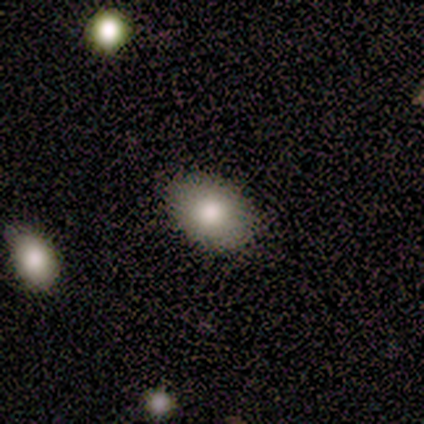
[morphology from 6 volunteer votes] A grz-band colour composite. It shows a smooth galaxy with no disk features (83%) that is in between round and cigar-shaped (80%). Merging: none (83%).